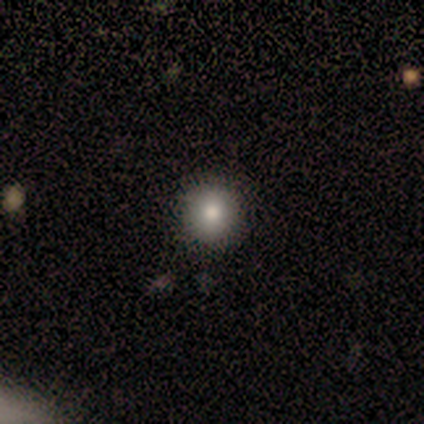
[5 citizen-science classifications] Smooth or featured? smooth (80%)
How rounded? round (100%)
Merging? none (100%)